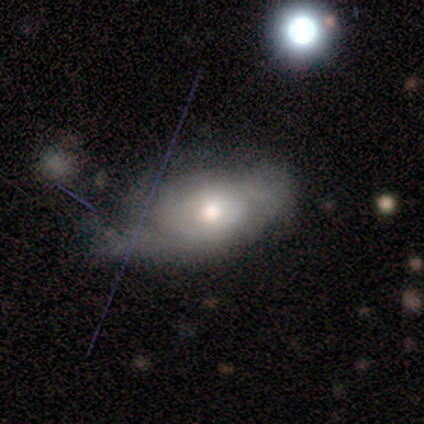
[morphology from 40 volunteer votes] Smooth or featured? 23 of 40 (57%) said featured or disk. Edge-on disk? 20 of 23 (87%) said no. Bar? 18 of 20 (90%) said no. Spiral arms? 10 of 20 (50%, tied with no) said yes. Spiral winding? 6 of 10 (60%) said tight. Spiral arm count? 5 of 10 (50%, tied with can't tell) said 2. Bulge size? 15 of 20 (75%) said moderate. Merging? 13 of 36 (36%) said minor disturbance.